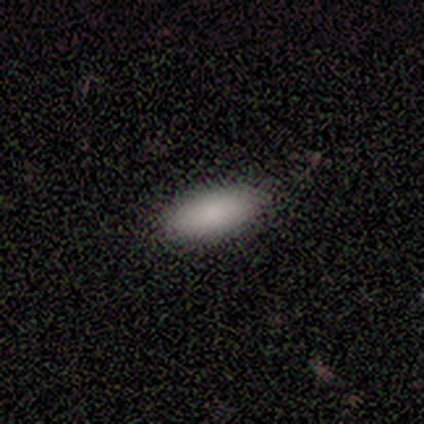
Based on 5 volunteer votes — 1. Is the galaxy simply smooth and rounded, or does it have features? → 100% smooth, 0% featured or disk, 0% star or artifact.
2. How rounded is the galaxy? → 80% in between, 20% cigar-shaped, 0% round.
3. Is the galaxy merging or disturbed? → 100% none, 0% minor disturbance, 0% major disturbance, 0% merger.